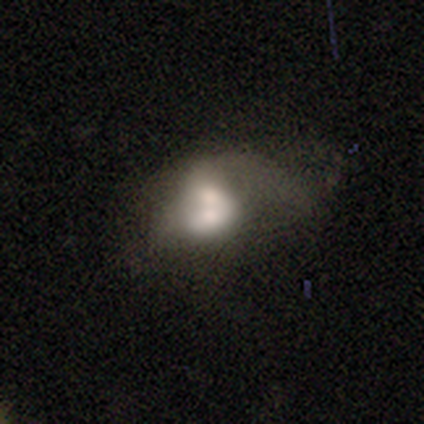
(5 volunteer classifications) Volunteers were most divided on "smooth or featured": smooth: 60%, featured or disk: 40%, star or artifact: 0%. More confident: how rounded — in between (100%); merging — merger (60%).